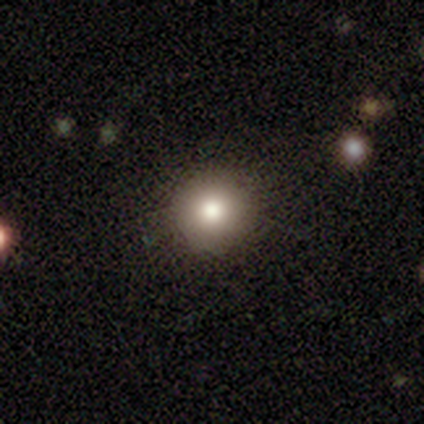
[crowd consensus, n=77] This appears to be a smooth galaxy with no disk features (79%) that is round (95%). Merging: none (44%).